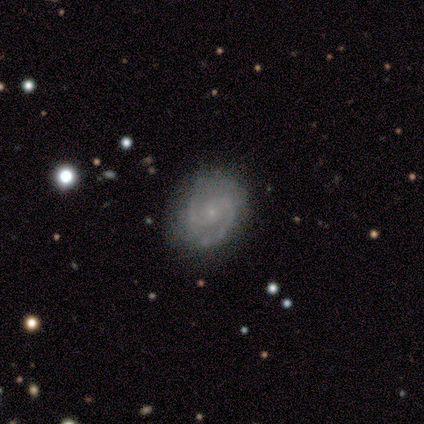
Morphology: type=featured or disk (60%); edge-on=no (100%); bar=no (100%); spiral arms=yes (100%); winding=medium (100%); arm count=2 (100%); bulge=small (100%); merging=none (80%).